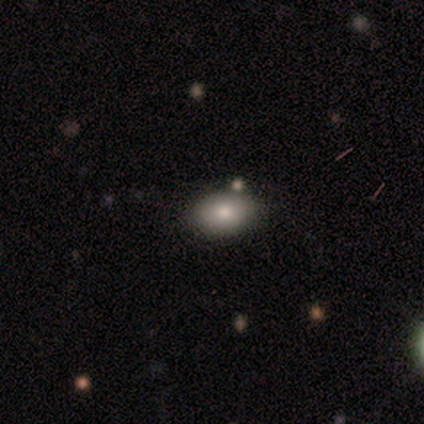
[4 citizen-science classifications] This appears to be a smooth galaxy with no disk features (100%) that is in between round and cigar-shaped (50%). Merging: none (75%).